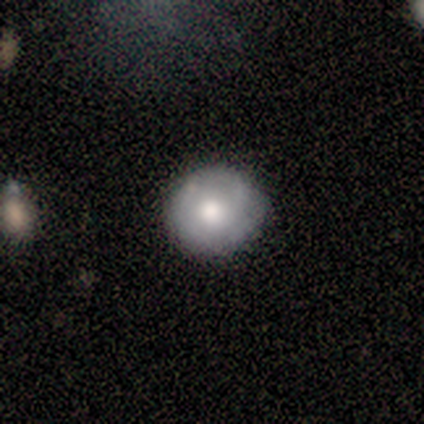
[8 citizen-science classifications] This appears to be a smooth galaxy with no disk features (62%) that is round (80%). Merging: none (62%).